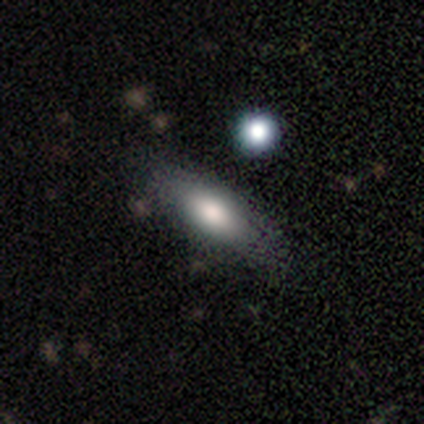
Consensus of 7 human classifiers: Volunteers were most divided on "how rounded" (2-way tie): in between: 50%, cigar-shaped: 50%, round: 0%. More confident: smooth or featured — smooth (57%); merging — none (57%).